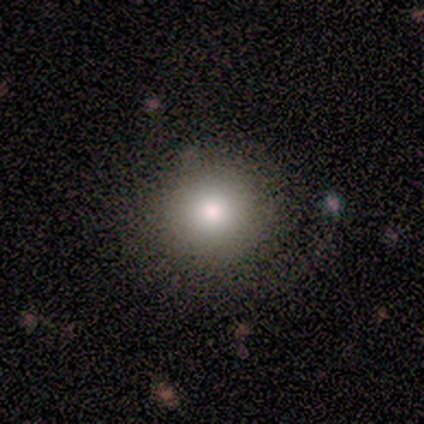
Overall: featured or disk (100%). Edge-on disk: no (100%). Bar: no (100%). Spiral arms: yes (100%). Spiral arm count: can't tell (100%). Spiral winding: tight (100%). Bulge size: large (100%). Merging: minor disturbance (100%).